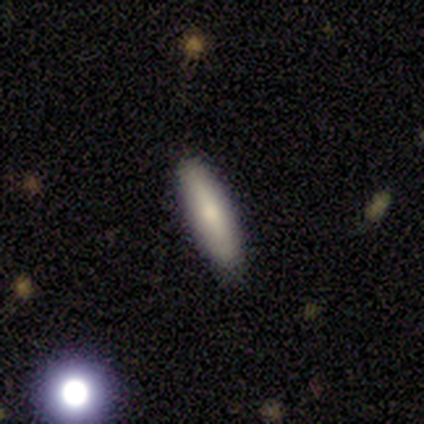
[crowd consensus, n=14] Smooth or featured?
  - smooth: 100% *
  - featured or disk: 0%
  - star or artifact: 0%
How rounded?
  - cigar-shaped: 50% *
  - in between: 43%
  - round: 7%
Merging?
  - none: 100% *
  - minor disturbance: 0%
  - major disturbance: 0%
  - merger: 0%